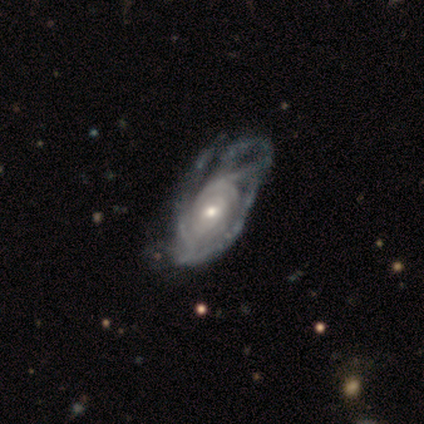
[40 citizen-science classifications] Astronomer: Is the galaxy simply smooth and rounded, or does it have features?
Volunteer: featured or disk — 90%.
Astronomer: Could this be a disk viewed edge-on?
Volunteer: no — 100%.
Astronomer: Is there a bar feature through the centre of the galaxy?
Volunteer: no — 69%.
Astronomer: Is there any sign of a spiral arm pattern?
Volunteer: yes — 92%.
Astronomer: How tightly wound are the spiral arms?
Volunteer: tight — 67%.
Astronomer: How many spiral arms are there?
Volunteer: can't tell — 73%.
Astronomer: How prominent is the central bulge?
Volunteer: small — 50% (runner-up: moderate, 44%).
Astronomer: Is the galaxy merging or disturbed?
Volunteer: major disturbance — 46%.